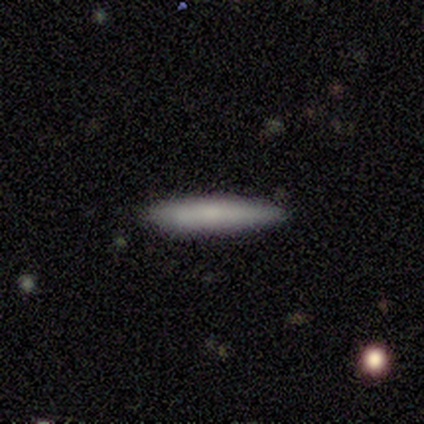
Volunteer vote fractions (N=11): Overall: smooth (64%; featured or disk 36%). How rounded: cigar-shaped (86%). Merging: none (91%).